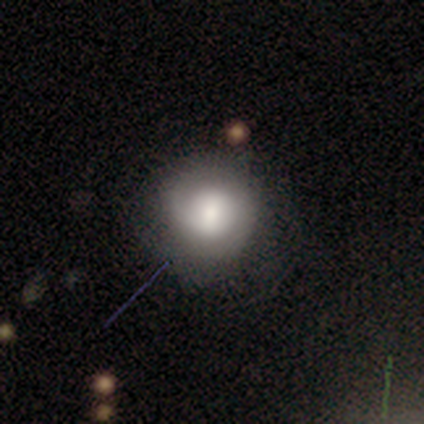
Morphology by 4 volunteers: Smooth or featured? 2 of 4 (50%, tied with featured or disk) said smooth. How rounded? 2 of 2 (100%) said in between. Merging? 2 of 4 (50%) said none.